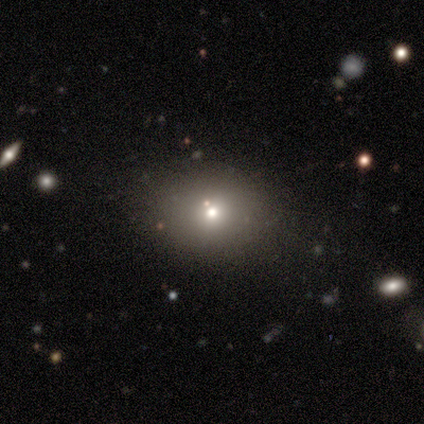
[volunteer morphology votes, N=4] Q: Smooth or featured?
A: smooth (75%); runner-up: featured or disk (25%)
Q: How rounded?
A: in between (67%); runner-up: round (33%)
Q: Merging?
A: none (100%)